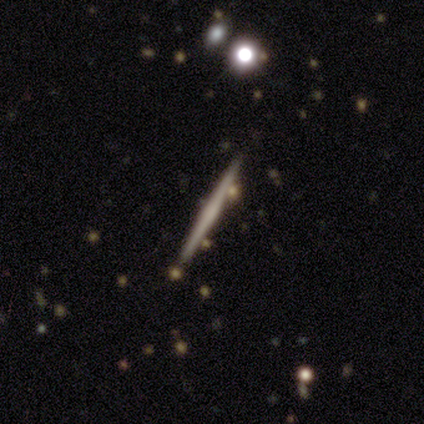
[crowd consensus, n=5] This is marginally a smooth galaxy (40%, tied with featured or disk). How rounded: clearly cigar-shaped (100%). Merging: likely none (75%).